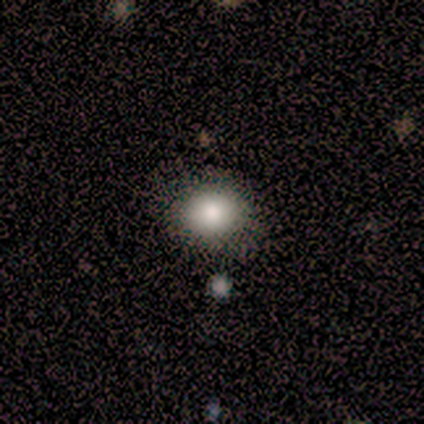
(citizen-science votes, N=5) Volunteers were most divided on "smooth or featured": featured or disk: 60%, smooth: 40%, star or artifact: 0%. More confident: edge-on disk — no (100%); bar — no (100%); spiral arms — no (100%); merging — none (100%); bulge size — moderate (67%).